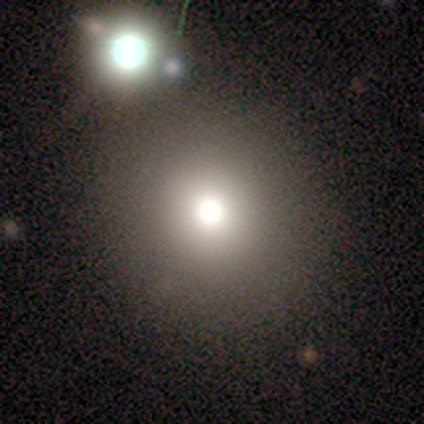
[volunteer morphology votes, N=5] smooth_or_featured: smooth (p=1.00)
how_rounded: round (p=1.00)
merging: none (p=1.00)